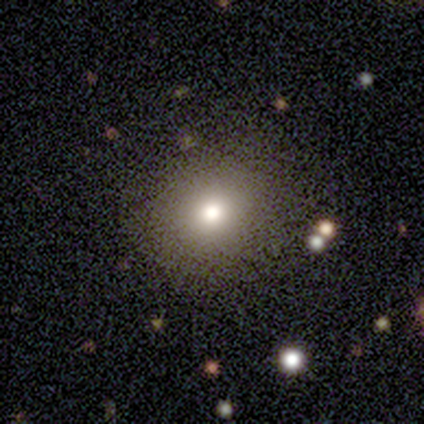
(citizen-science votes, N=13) Smooth or featured? smooth (85%)
How rounded? round (64%)
Merging? none (67%)